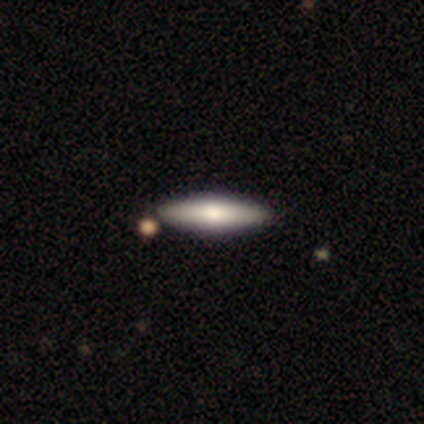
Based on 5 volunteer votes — Volunteers were most divided on "smooth or featured": featured or disk: 60%, smooth: 40%, star or artifact: 0%. More confident: edge-on bulge — rounded (100%); merging — none (100%); edge-on disk — yes (67%).